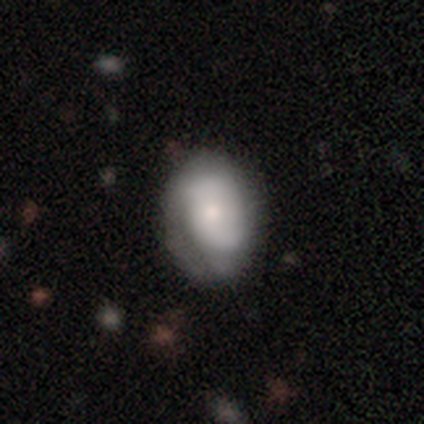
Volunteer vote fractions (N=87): Smooth or featured? smooth (55%)
How rounded? in between (69%)
Merging? none (51%)